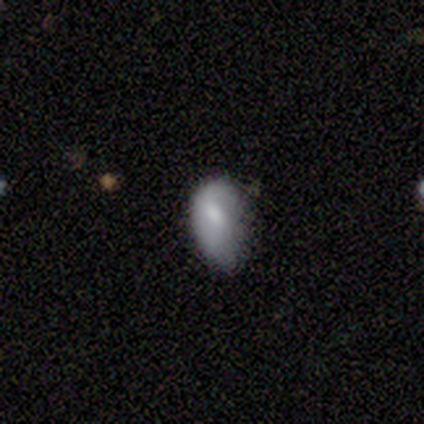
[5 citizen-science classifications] Overall: smooth (80%). How rounded: in between (100%). Merging: none (80%).